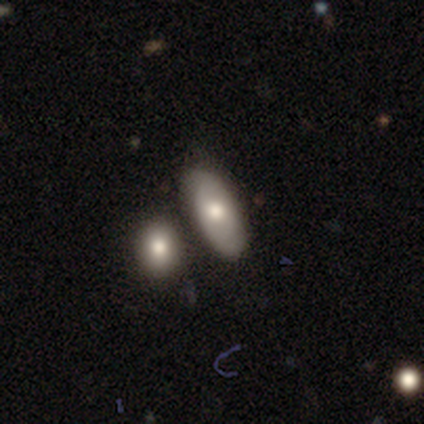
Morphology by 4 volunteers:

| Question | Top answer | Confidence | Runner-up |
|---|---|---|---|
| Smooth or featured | smooth | 75% | featured or disk (25%) |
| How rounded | in between | 100% | — |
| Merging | none | 75% | merger (25%) |